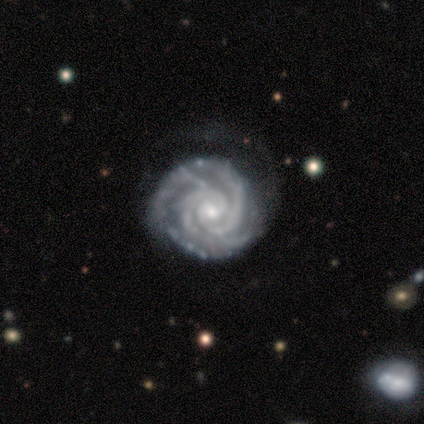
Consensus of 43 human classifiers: smooth_or_featured: featured or disk (p=1.00)
disk_edge_on: no (p=0.98) [alt: yes p=0.02]
bar: no (p=0.71) [alt: weak p=0.26]
has_spiral_arms: yes (p=1.00)
spiral_winding: tight (p=0.88) [alt: medium p=0.12]
spiral_arm_count: 2 (p=0.31) [alt: 3 p=0.24]
bulge_size: small (p=0.55) [alt: moderate p=0.45]
merging: none (p=0.58) [alt: minor disturbance p=0.23]